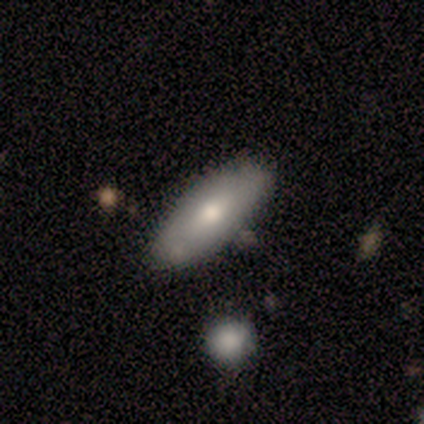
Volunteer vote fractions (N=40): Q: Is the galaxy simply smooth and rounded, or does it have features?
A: smooth — 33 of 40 (82%).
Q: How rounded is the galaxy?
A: in between — 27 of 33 (82%).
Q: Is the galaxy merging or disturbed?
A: none — 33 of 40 (82%).